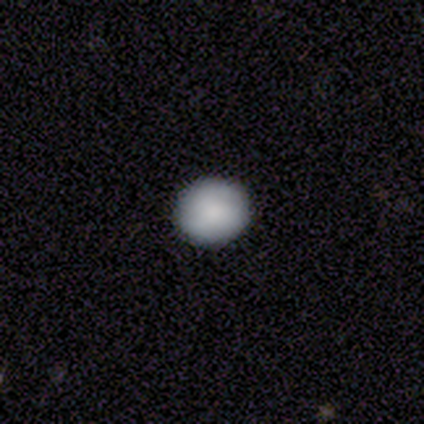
This appears to be a smooth galaxy with no disk features (86%) that is round (88%). Merging: none (94%).